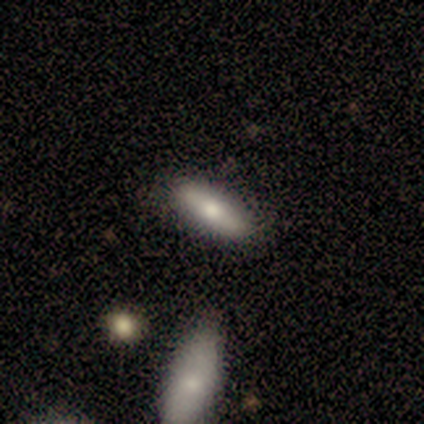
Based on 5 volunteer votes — Q: Smooth or featured?
A: smooth (80%); runner-up: star or artifact (20%)
Q: How rounded?
A: in between (75%); runner-up: cigar-shaped (25%)
Q: Merging?
A: none (75%); runner-up: minor disturbance (25%)